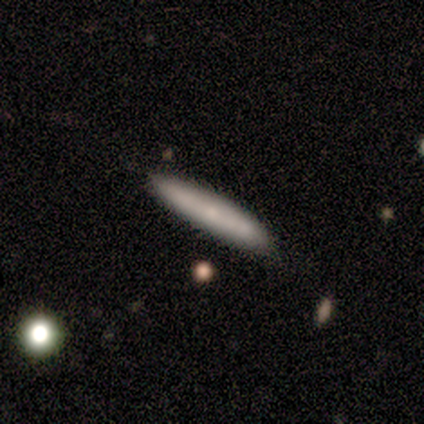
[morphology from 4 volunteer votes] This is clearly a smooth galaxy (100%). How rounded: clearly cigar-shaped (100%). Merging: possibly none (50%).